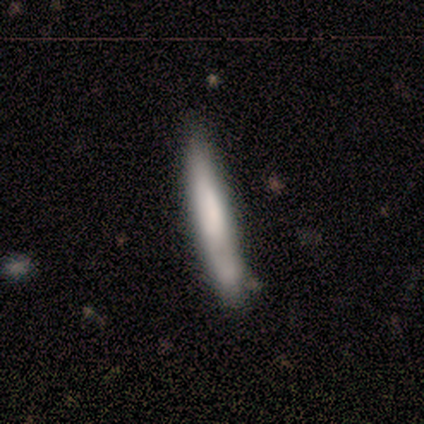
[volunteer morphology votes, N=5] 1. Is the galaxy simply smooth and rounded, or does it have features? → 100% smooth, 0% featured or disk, 0% star or artifact.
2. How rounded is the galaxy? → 100% cigar-shaped, 0% round, 0% in between.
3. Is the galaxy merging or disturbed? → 40% none (tied), 40% minor disturbance (tied), 20% merger, 0% major disturbance.